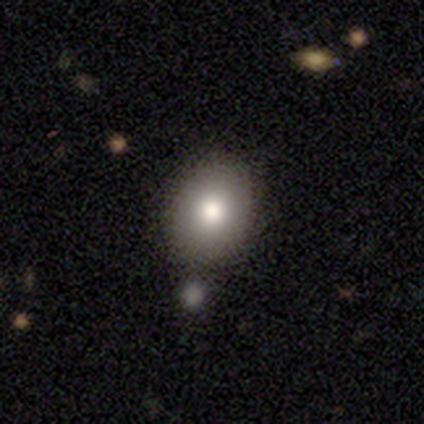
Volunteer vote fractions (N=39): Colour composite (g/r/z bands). It shows a smooth galaxy with no disk features (79%) that is in between round and cigar-shaped (58%). Merging: none (86%).